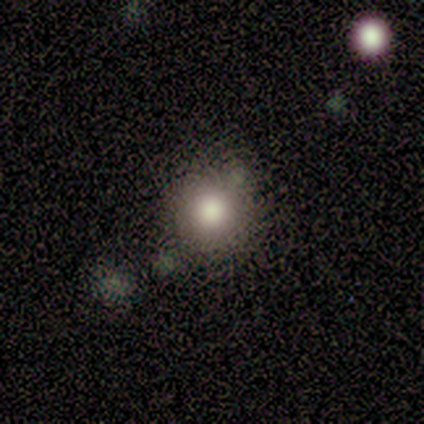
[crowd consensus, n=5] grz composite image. It shows a smooth galaxy with no disk features (100%) that is round (100%). Merging: none (80%).